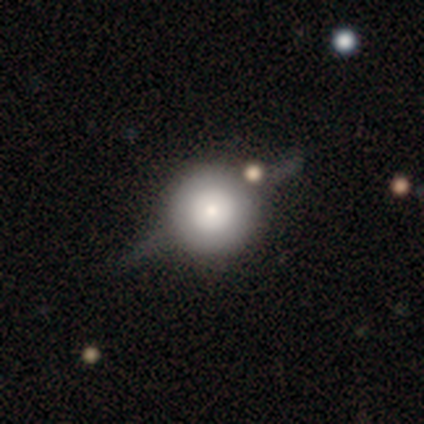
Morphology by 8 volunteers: This is likely a featured or disk galaxy (62%). It is likely viewed edge-on (60%). Edge-on bulge: likely rounded (67%). Merging: likely none (62%).